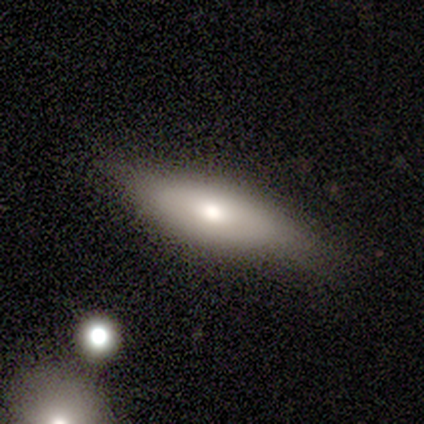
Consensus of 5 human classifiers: smooth 60%, featured or disk 40%, star or artifact 0%. Down the decision tree: how rounded — in between (67%); merging — none (100%).